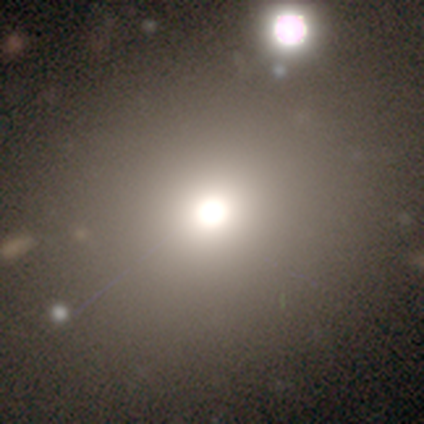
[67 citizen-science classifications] Volunteers were most divided on "smooth or featured": smooth: 54%, star or artifact: 28%, featured or disk: 18%. More confident: how rounded — round (83%); merging — none (58%).